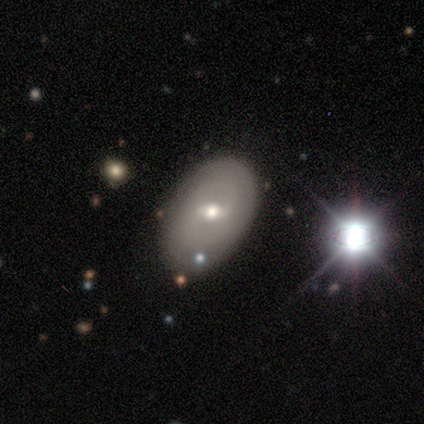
smooth 46%, featured or disk 38%, star or artifact 15%. Down the decision tree: how rounded — in between (89%); merging — none (79%).